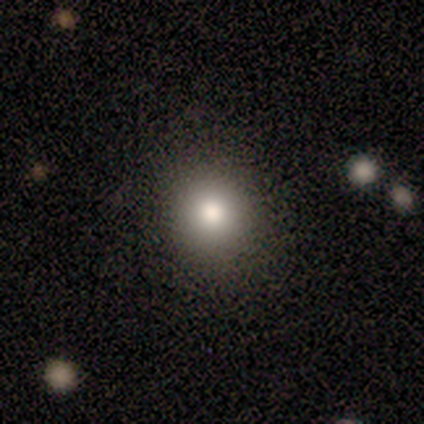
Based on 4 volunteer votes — A smooth galaxy with no disk features (100%) that is round (75%). Merging: none (100%).